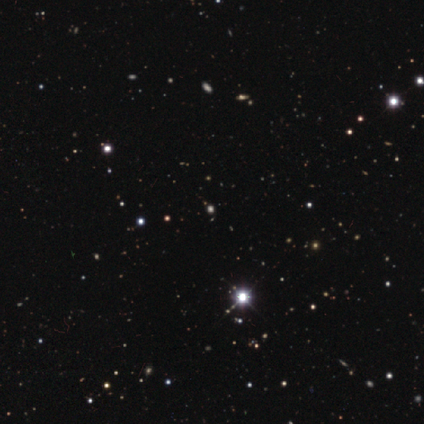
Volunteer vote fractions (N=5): Smooth or featured? star or artifact (80%)